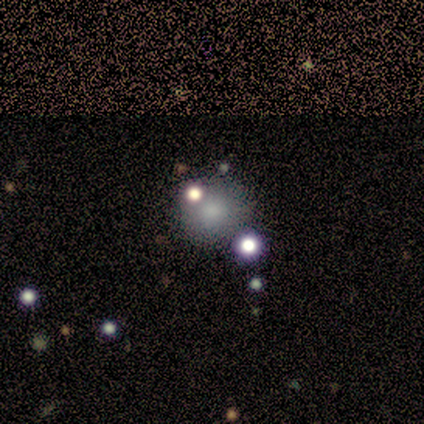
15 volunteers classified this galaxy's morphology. Smooth or featured?
  - smooth: 73% *
  - star or artifact: 20%
  - featured or disk: 7%
How rounded?
  - round: 82% *
  - in between: 9%
  - cigar-shaped: 9%
Merging?
  - none: 92% *
  - minor disturbance: 8%
  - major disturbance: 0%
  - merger: 0%